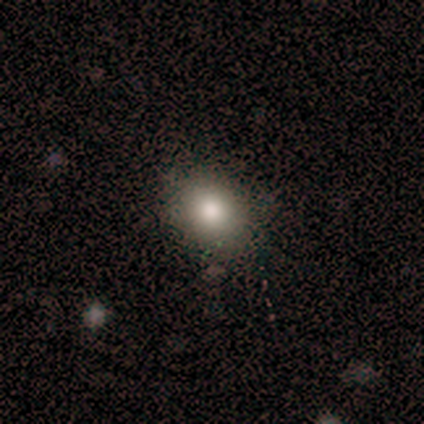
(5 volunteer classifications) Smooth or featured: smooth — 80% (star or artifact — 20%)
How rounded: round — 50% (tied with in between — 50%)
Merging: none — 75% (minor disturbance — 25%)